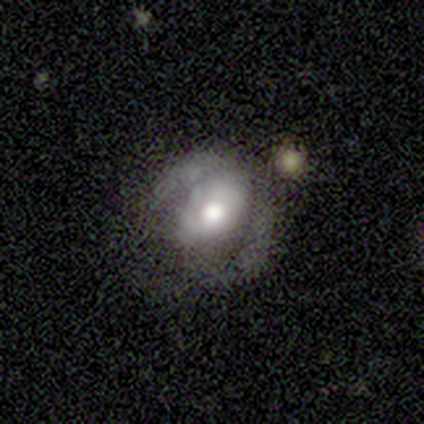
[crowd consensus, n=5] Morphology: type=featured or disk (80%); edge-on=no (100%); bar=no (75%); spiral arms=yes (50%, tied with no); winding=medium (50%, tied with loose); arm count=2 (100%); bulge=moderate (75%); merging=none (60%).